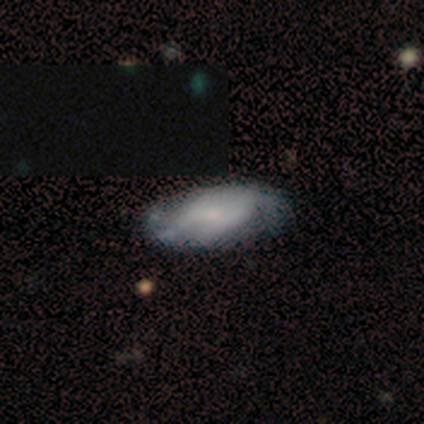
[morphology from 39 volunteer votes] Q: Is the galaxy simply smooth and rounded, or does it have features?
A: featured or disk — 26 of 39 (67%).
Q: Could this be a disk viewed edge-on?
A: no — 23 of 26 (88%).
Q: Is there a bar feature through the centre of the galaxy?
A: no — 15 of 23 (65%).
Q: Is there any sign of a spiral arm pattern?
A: yes — 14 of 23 (61%).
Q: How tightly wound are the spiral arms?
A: medium — 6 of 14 (43%).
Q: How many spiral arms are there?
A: can't tell — 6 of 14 (43%).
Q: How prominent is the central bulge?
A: small — 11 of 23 (48%).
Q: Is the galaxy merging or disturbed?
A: none — 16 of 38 (42%).